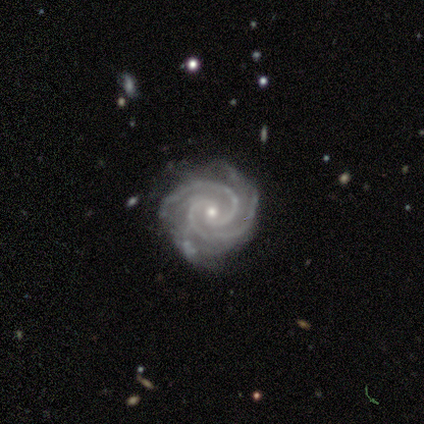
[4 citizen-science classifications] featured or disk 100%, smooth 0%, star or artifact 0%. Down the decision tree: edge-on disk — no (100%); bar — weak (50%, tied with no); spiral arms — yes (100%); spiral arm count — 2 (100%); spiral winding — tight (75%); bulge size — small (75%); merging — none (50%, tied with minor disturbance).